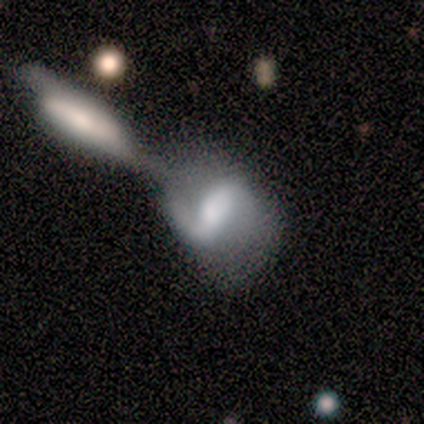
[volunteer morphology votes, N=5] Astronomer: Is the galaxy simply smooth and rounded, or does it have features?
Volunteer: featured or disk — 100%.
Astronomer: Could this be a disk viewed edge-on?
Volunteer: no — 100%.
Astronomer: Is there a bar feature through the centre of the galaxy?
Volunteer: strong — 60% (runner-up: weak, 40%).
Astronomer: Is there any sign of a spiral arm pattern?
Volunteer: yes — 100%.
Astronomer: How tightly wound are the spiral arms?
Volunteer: loose — 100%.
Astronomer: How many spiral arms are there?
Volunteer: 2 — 80%.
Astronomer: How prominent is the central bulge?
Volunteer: large — 60% (runner-up: moderate, 40%).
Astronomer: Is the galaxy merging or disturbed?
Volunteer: merger — 80%.